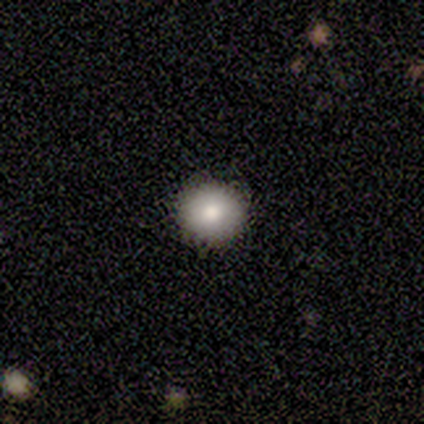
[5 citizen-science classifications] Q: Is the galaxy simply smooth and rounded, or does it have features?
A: smooth — 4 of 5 (80%).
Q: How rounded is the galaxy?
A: round — 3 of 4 (75%).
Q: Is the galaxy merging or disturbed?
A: none — 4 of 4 (100%).